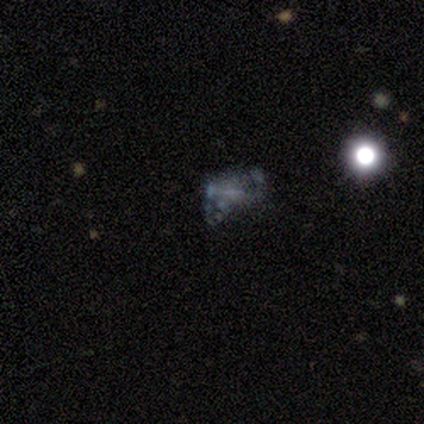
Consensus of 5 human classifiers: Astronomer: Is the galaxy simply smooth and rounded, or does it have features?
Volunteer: featured or disk — 60%.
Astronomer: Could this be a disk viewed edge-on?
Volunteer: no — 100%.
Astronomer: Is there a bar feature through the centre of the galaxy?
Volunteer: no — 100%.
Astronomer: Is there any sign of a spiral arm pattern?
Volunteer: no — 100%.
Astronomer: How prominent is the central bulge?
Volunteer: dominant — 33%, tied with small and none at 33%.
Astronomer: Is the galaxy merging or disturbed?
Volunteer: minor disturbance — 50%.